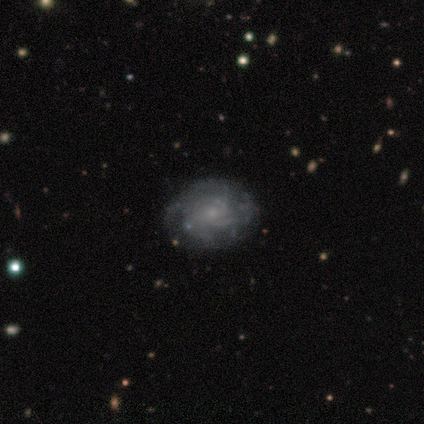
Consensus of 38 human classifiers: A featured or disk galaxy (87%) with no bar (73%), medium (54%) spiral arms (85%) and a small central bulge (73%). Merging: none (63%).